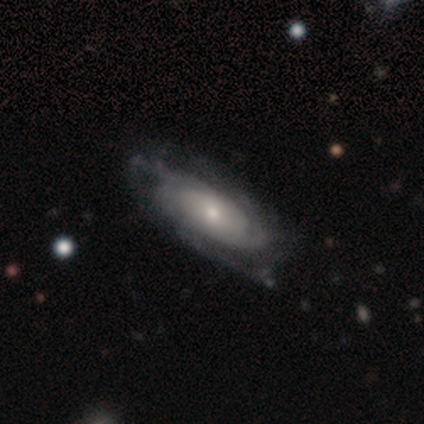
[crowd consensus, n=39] smooth-or-featured: featured or disk: 72% | smooth: 18% | star or artifact: 10%
  disk-edge-on: no: 93% | yes: 7%
    bar: no: 77% | weak: 23% | strong: 0%
    has-spiral-arms: yes: 73% | no: 27%
      spiral-winding: tight: 79% | medium: 16% | loose: 5%
      spiral-arm-count: can't tell: 63% | 3: 26% | 1: 5% | 2: 5% | 4: 0% | more than 4: 0%
    bulge-size: small: 50% | moderate: 38% | large: 12% | dominant: 0% | none: 0%
  merging: none: 51% | minor disturbance: 29% | major disturbance: 20% | merger: 0%